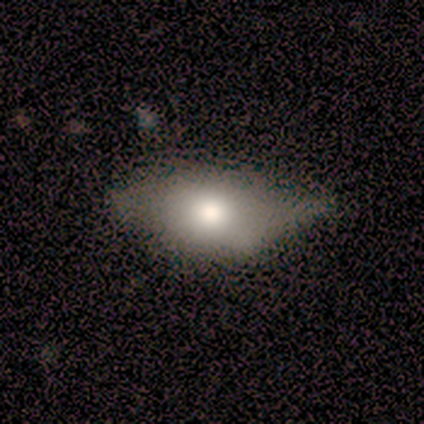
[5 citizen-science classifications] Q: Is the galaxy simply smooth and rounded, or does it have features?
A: smooth — 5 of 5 (100%).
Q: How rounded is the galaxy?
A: in between — 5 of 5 (100%).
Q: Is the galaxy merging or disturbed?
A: minor disturbance — 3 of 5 (60%).